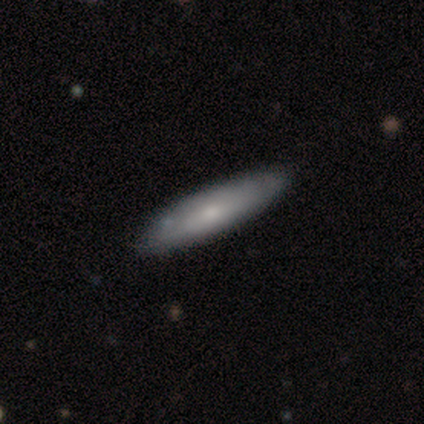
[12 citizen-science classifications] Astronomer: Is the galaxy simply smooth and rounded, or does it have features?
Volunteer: smooth — 67%.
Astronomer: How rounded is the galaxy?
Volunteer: cigar-shaped — 100%.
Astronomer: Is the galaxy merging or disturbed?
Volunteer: none — 83%.